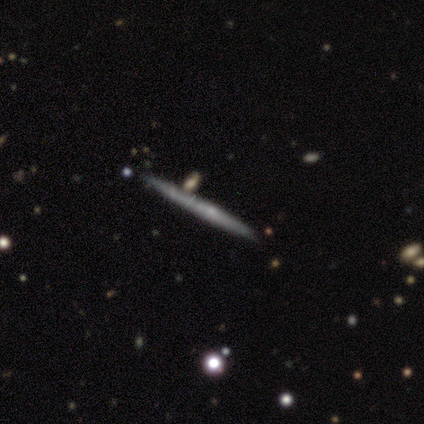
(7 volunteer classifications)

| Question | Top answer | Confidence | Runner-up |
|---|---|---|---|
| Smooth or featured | featured or disk | 57% | smooth (43%) |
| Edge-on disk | yes | 100% | — |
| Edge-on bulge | rounded | 75% | none (25%) |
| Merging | none | 71% | minor disturbance (14%) |